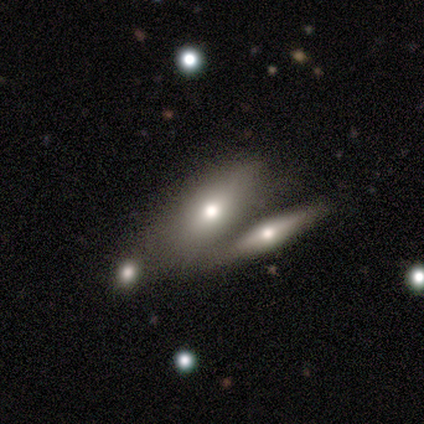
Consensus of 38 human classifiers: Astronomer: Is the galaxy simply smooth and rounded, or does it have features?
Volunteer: smooth — 61% (runner-up: featured or disk, 37%).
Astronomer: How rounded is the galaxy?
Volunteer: in between — 70%.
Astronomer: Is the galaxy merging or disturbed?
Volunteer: merger — 68%.